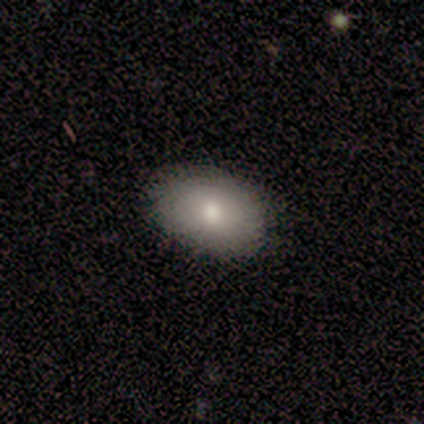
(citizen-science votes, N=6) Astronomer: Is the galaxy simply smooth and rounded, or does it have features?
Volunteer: smooth — 83%.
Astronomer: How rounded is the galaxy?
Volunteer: in between — 100%.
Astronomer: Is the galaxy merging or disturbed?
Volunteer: none — 100%.